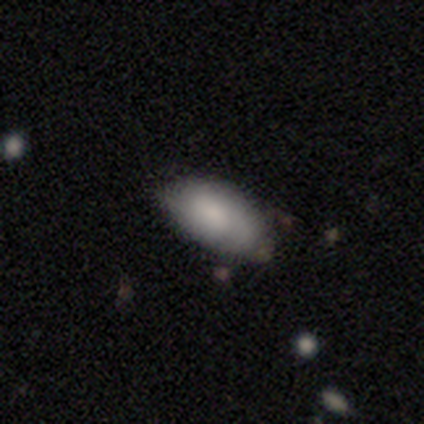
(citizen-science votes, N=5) smooth-or-featured: smooth: 80% | featured or disk: 20% | star or artifact: 0%
  how-rounded: in between: 100% | round: 0% | cigar-shaped: 0%
  merging: none: 80% | major disturbance: 20% | minor disturbance: 0% | merger: 0%